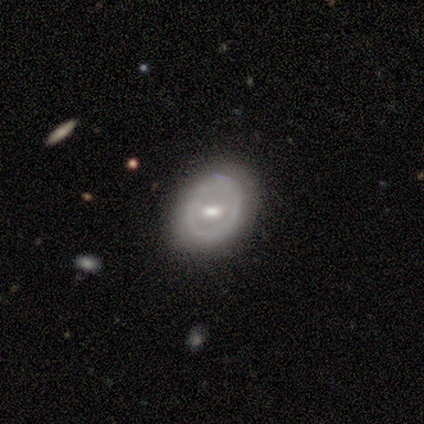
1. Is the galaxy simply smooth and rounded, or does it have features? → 71% featured or disk, 22% smooth, 7% star or artifact.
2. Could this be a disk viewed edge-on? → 100% no, 0% yes.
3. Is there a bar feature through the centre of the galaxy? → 44% weak, 38% strong, 19% no.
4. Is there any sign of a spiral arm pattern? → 78% no, 22% yes.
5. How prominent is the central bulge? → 50% moderate, 19% small, 19% none, 12% large, 0% dominant.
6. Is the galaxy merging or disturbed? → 79% none, 17% minor disturbance, 2% major disturbance, 2% merger.